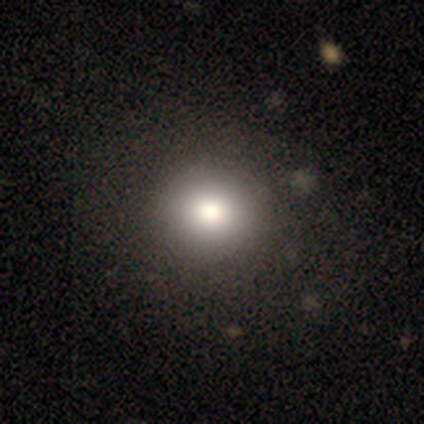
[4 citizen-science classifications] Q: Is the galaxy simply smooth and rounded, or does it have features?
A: smooth — 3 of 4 (75%).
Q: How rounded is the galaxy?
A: round — 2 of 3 (67%).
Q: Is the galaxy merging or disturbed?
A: none — 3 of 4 (75%).